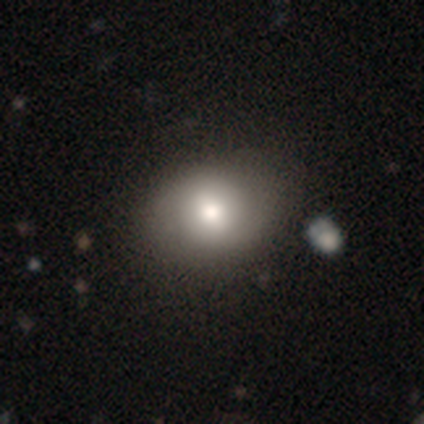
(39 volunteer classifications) Smooth or featured?
  - smooth: 64% *
  - featured or disk: 23%
  - star or artifact: 13%
How rounded?
  - in between: 60% *
  - round: 40%
  - cigar-shaped: 0%
Merging?
  - none: 47% *
  - minor disturbance: 6%
  - major disturbance: 6%
  - merger: 6%